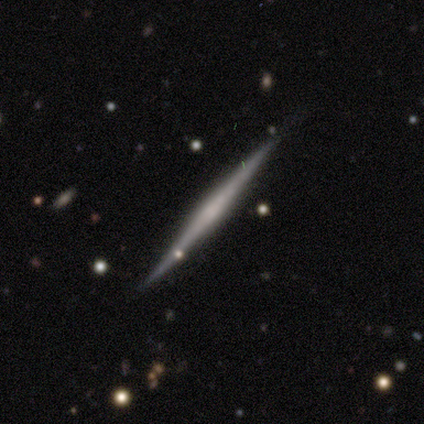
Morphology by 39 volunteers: A featured or disk galaxy (72%) viewed edge-on (100%) with no central bulge (57%). Merging: none (90%).